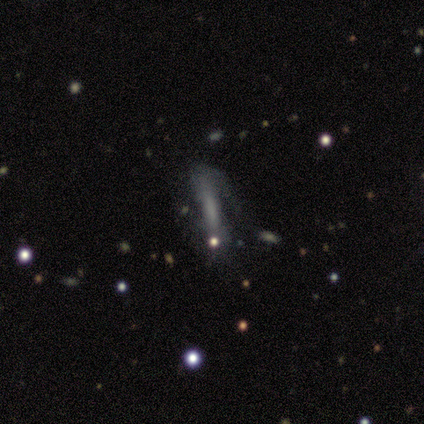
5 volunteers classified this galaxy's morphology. featured or disk 60%, smooth 40%, star or artifact 0%. Down the decision tree: edge-on disk — yes (100%); edge-on bulge — boxy (67%); merging — major disturbance (80%).